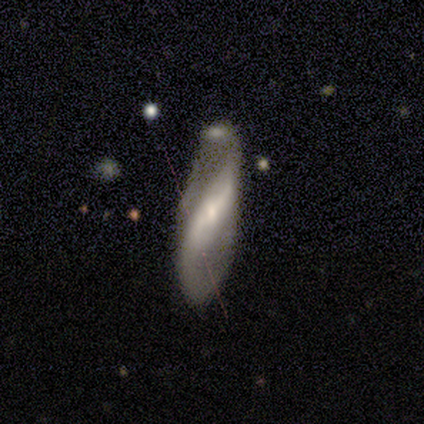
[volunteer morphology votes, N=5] Smooth or featured?
  - featured or disk: 60% *
  - smooth: 20%
  - star or artifact: 20%
Edge-on disk?
  - no: 100% *
  - yes: 0%
Bar?
  - strong: 67% *
  - weak: 33%
  - no: 0%
Spiral arms?
  - yes: 67% *
  - no: 33%
Spiral winding?
  - medium: 50% * (tied)
  - loose: 50% * (tied)
  - tight: 0%
Spiral arm count?
  - 2: 100% *
  - 1: 0%
  - 3: 0%
  - 4: 0%
  - more than 4: 0%
  - can't tell: 0%
Bulge size?
  - moderate: 67% *
  - small: 33%
  - dominant: 0%
  - large: 0%
  - none: 0%
Merging?
  - merger: 75% *
  - minor disturbance: 25%
  - none: 0%
  - major disturbance: 0%